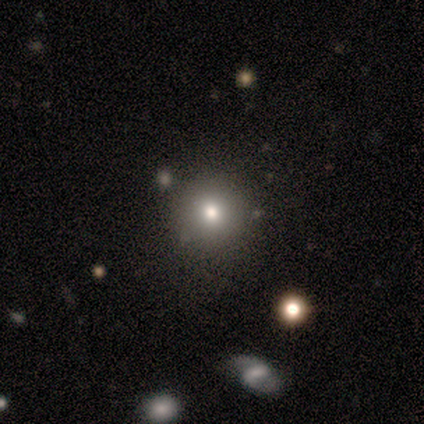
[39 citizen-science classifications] Smooth or featured?
  - smooth: 77% *
  - star or artifact: 15%
  - featured or disk: 8%
How rounded?
  - round: 93% *
  - in between: 7%
  - cigar-shaped: 0%
Merging?
  - none: 91% *
  - minor disturbance: 3%
  - major disturbance: 3%
  - merger: 3%